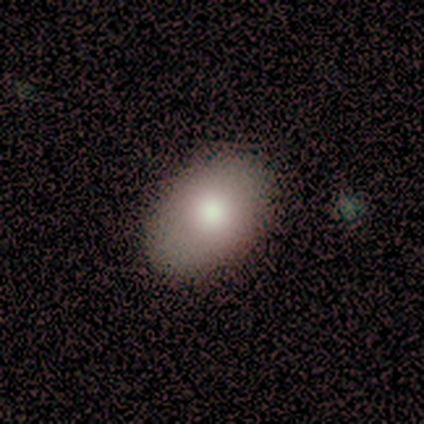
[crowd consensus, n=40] Morphology: type=smooth (75%); roundness=in between (77%); merging=none (67%).